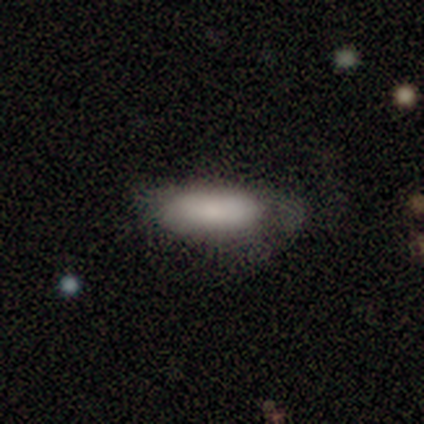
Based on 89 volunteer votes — Volunteers were most divided on "merging": none: 48%, minor disturbance: 35%, major disturbance: 18%, merger: 0%. More confident: smooth or featured — smooth (87%); how rounded — in between (73%).